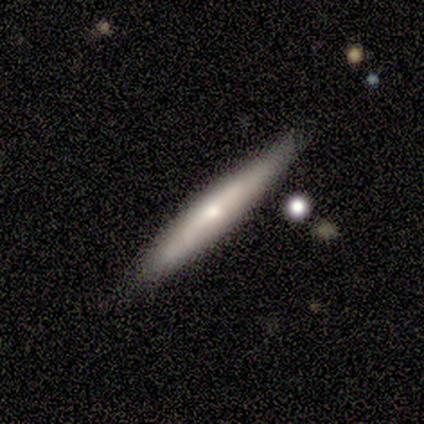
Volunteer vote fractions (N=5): smooth_or_featured: smooth (p=0.80) [alt: featured or disk p=0.20]
how_rounded: cigar-shaped (p=1.00)
merging: none (p=1.00)